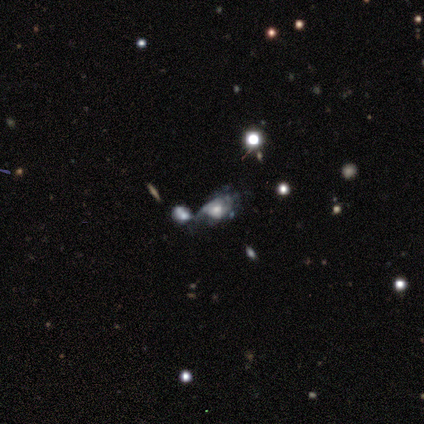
smooth_or_featured: featured or disk (p=0.80) [alt: star or artifact p=0.20]
disk_edge_on: no (p=1.00)
bar: no (p=0.75) [alt: weak p=0.25]
has_spiral_arms: yes (p=0.50) [tied with: no p=0.50]
spiral_winding: medium (p=0.50) [tied with: loose p=0.50]
spiral_arm_count: 1 (p=0.50) [tied with: can't tell p=0.50]
bulge_size: moderate (p=0.75) [alt: large p=0.25]
merging: merger (p=0.75) [alt: major disturbance p=0.25]